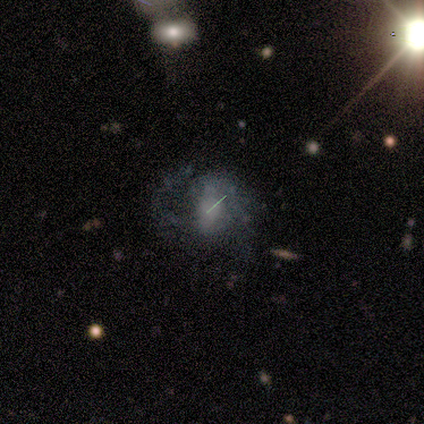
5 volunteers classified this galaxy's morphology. smooth_or_featured: featured or disk (p=0.60) [alt: smooth p=0.20]
disk_edge_on: no (p=1.00)
bar: no (p=0.67) [alt: strong p=0.33]
has_spiral_arms: yes (p=0.67) [alt: no p=0.33]
spiral_winding: medium (p=0.50) [tied with: loose p=0.50]
spiral_arm_count: 2 (p=1.00)
bulge_size: none (p=0.67) [alt: large p=0.33]
merging: none (p=0.50) [tied with: minor disturbance p=0.50]